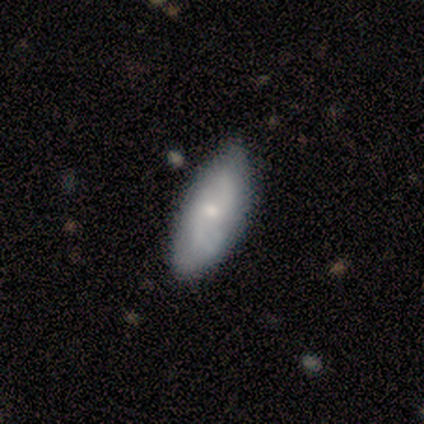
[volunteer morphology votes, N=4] Volunteers were most divided on "bar" (2-way tie): strong: 50%, no: 50%, weak: 0%; "spiral arms" (2-way tie): yes: 50%, no: 50%; "bulge size" (2-way tie): moderate: 50%, small: 50%, dominant: 0%, large: 0%, none: 0%. More confident: edge-on disk — no (100%); spiral winding — tight (100%); spiral arm count — 2 (100%); merging — none (100%); smooth or featured — featured or disk (50%).